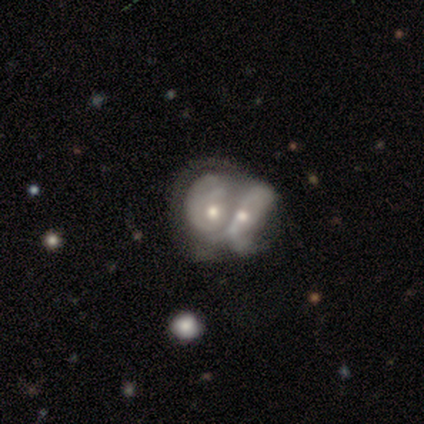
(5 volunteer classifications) smooth-or-featured: featured or disk: 80% | star or artifact: 20% | smooth: 0%
  disk-edge-on: no: 100% | yes: 0%
    bar: no: 100% | strong: 0% | weak: 0%
    has-spiral-arms: no: 75% | yes: 25%
    bulge-size: moderate: 100% | dominant: 0% | large: 0% | small: 0% | none: 0%
  merging: merger: 75% | major disturbance: 25% | none: 0% | minor disturbance: 0%